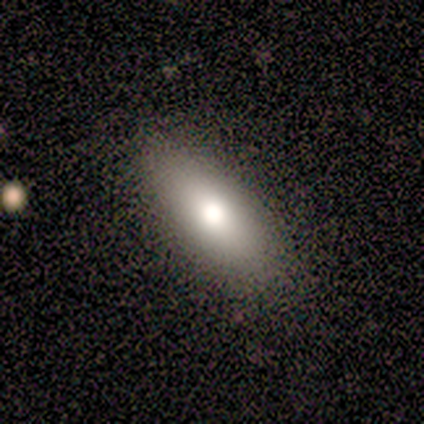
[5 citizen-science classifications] smooth-or-featured: smooth: 80% | featured or disk: 20% | star or artifact: 0%
  how-rounded: cigar-shaped: 50% | round: 25% | in between: 25%
  merging: none: 80% | minor disturbance: 20% | major disturbance: 0% | merger: 0%